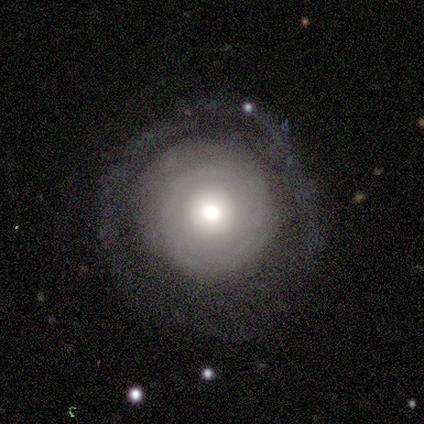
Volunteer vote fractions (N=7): smooth-or-featured: featured or disk: 86% | smooth: 14% | star or artifact: 0%
  disk-edge-on: no: 100% | yes: 0%
    bar: no: 83% | weak: 17% | strong: 0%
    has-spiral-arms: yes: 50% (tied) | no: 50% (tied)
      spiral-winding: medium: 67% | tight: 33% | loose: 0%
      spiral-arm-count: can't tell: 100% | 1: 0% | 2: 0% | 3: 0% | 4: 0% | more than 4: 0%
    bulge-size: moderate: 83% | large: 17% | dominant: 0% | small: 0% | none: 0%
  merging: none: 57% | minor disturbance: 29% | major disturbance: 14% | merger: 0%